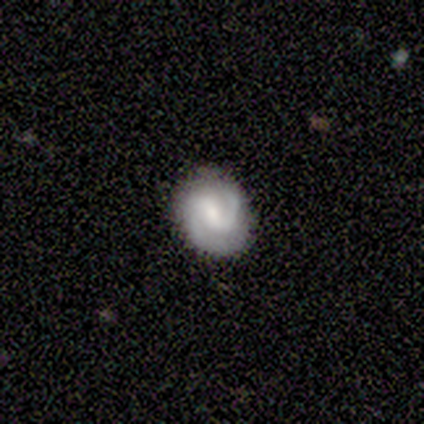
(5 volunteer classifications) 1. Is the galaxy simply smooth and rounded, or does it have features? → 60% featured or disk, 40% smooth, 0% star or artifact.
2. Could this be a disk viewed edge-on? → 100% no, 0% yes.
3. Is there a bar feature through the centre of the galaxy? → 67% strong, 33% no, 0% weak.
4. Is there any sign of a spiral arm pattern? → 100% yes, 0% no.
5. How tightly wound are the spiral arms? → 67% medium, 33% tight, 0% loose.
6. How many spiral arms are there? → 100% 2, 0% 1, 0% 3, 0% 4, 0% more than 4, 0% can't tell.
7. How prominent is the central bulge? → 100% small, 0% dominant, 0% large, 0% moderate, 0% none.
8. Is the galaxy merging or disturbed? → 80% none, 20% minor disturbance, 0% major disturbance, 0% merger.